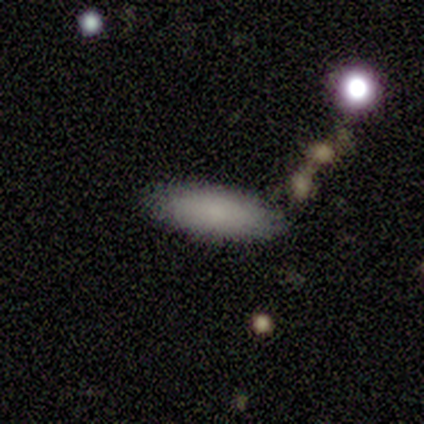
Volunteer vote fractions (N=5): This is clearly a smooth galaxy (100%). How rounded: clearly in between (80%). Merging: clearly none (80%).